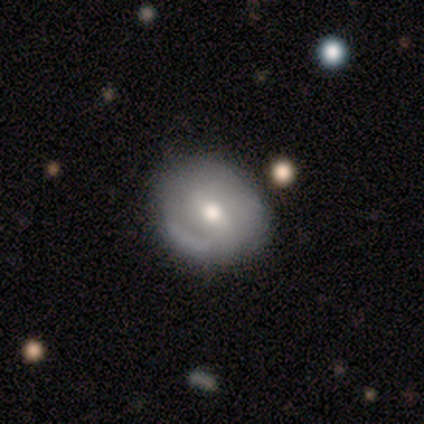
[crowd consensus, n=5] Overall: featured or disk (60%; smooth 40%). Edge-on disk: no (100%). Bar: strong (33%, tied with weak and no). Spiral arms: yes (100%). Spiral arm count: can't tell (67%; 2 33%). Spiral winding: medium (67%; tight 33%). Bulge size: moderate (100%). Merging: none (60%; minor disturbance 40%).